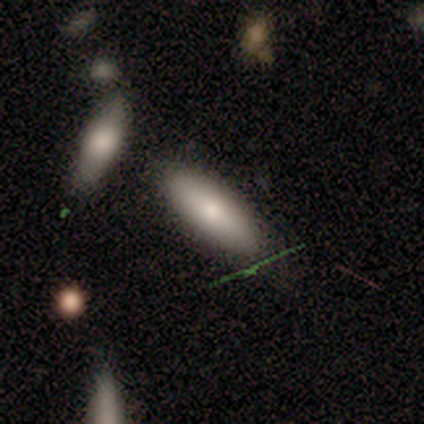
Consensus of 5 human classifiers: smooth_or_featured: smooth (p=0.80) [alt: featured or disk p=0.20]
how_rounded: in between (p=0.75) [alt: cigar-shaped p=0.25]
merging: minor disturbance (p=0.40) [tied with: major disturbance p=0.40]